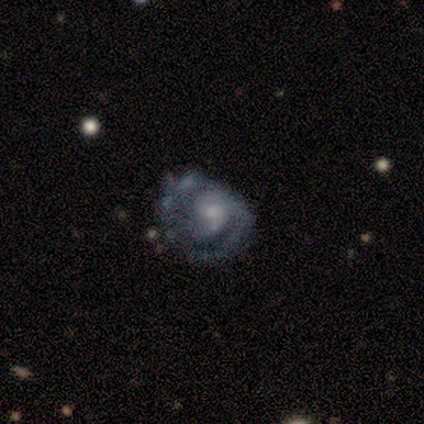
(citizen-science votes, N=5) Smooth or featured: featured or disk — 100%
Edge-on disk: no — 100%
Bar: no — 60% (strong — 20%)
Spiral arms: yes — 100%
Spiral winding: tight — 60% (medium — 40%)
Spiral arm count: 2 — 80% (1 — 20%)
Bulge size: small — 80% (moderate — 20%)
Merging: none — 40% (tied with minor disturbance — 40%)